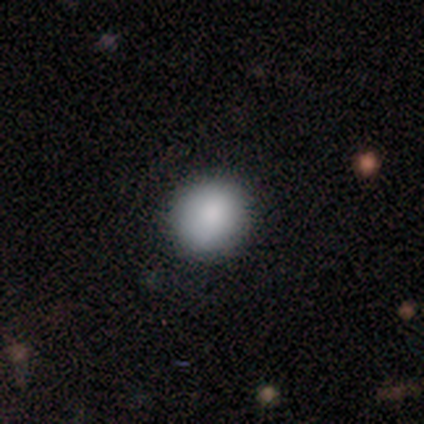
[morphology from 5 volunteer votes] Q: Smooth or featured?
A: smooth (80%); runner-up: star or artifact (20%)
Q: How rounded?
A: round (75%); runner-up: in between (25%)
Q: Merging?
A: none (100%)